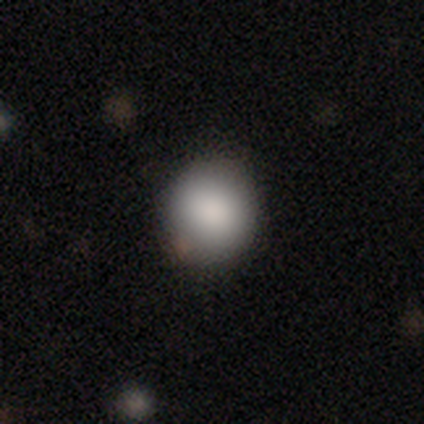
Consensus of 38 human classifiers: Smooth or featured? 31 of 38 (82%) said smooth. How rounded? 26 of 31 (84%) said round. Merging? 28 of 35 (80%) said none.